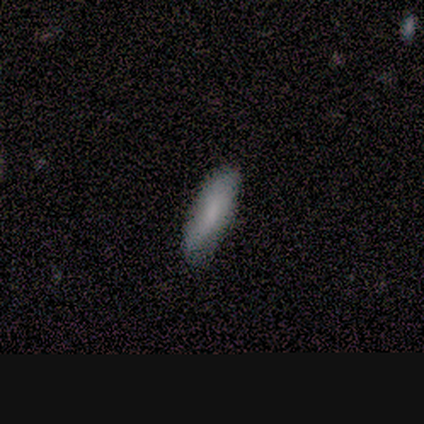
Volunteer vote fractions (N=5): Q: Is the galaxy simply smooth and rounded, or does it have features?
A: smooth — 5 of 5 (100%).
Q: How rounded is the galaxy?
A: cigar-shaped — 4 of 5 (80%).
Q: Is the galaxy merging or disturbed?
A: none — 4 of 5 (80%).